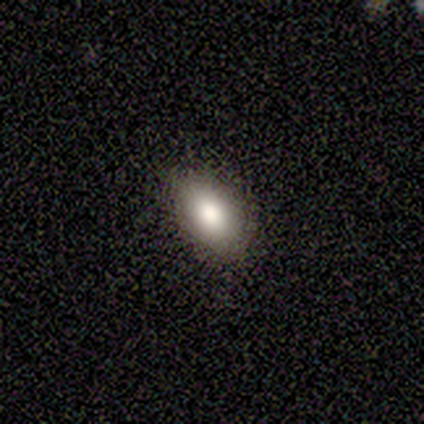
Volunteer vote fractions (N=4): Smooth or featured? 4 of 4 (100%) said smooth. How rounded? 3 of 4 (75%) said in between. Merging? 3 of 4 (75%) said none.